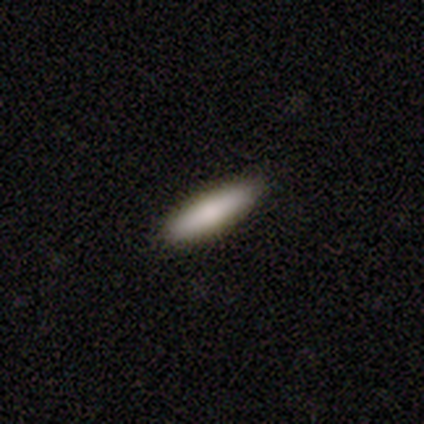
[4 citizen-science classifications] smooth-or-featured: smooth: 100% | featured or disk: 0% | star or artifact: 0%
  how-rounded: cigar-shaped: 75% | in between: 25% | round: 0%
  merging: none: 100% | minor disturbance: 0% | major disturbance: 0% | merger: 0%